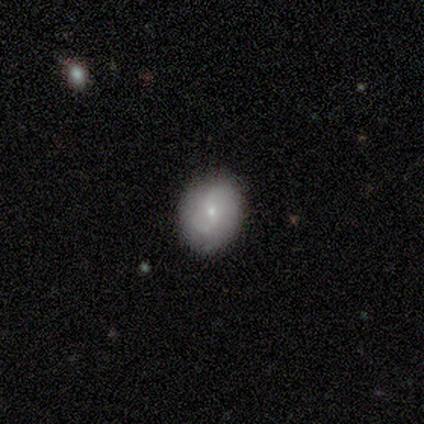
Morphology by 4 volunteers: Q: Smooth or featured?
A: featured or disk (75%); runner-up: smooth (25%)
Q: Edge-on disk?
A: no (100%)
Q: Bar?
A: no (67%); runner-up: weak (33%)
Q: Spiral arms?
A: yes (100%)
Q: Spiral winding?
A: loose (67%); runner-up: medium (33%)
Q: Spiral arm count?
A: 2 (67%); runner-up: 1 (33%)
Q: Bulge size?
A: small (67%); runner-up: moderate (33%)
Q: Merging?
A: none (75%); runner-up: major disturbance (25%)